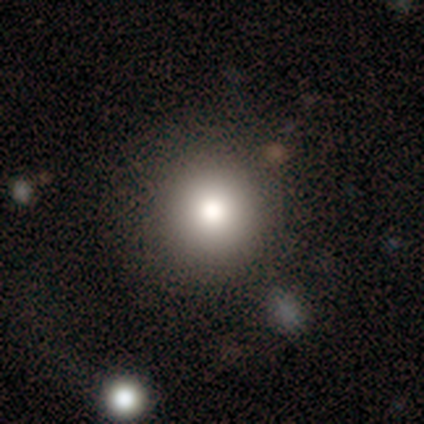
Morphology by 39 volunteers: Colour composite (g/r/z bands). It shows a smooth galaxy with no disk features (79%) that is round (94%). Merging: none (86%).